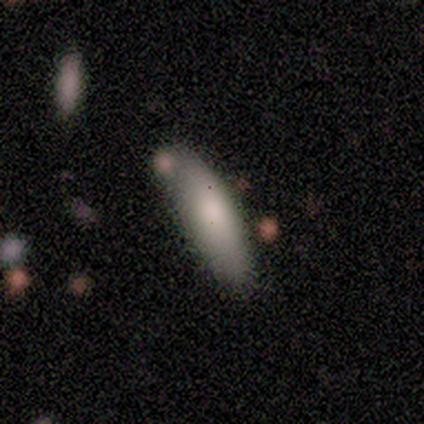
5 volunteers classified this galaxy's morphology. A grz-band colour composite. It shows a smooth galaxy with no disk features (80%) that is cigar-shaped (75%). Merging: none (100%).